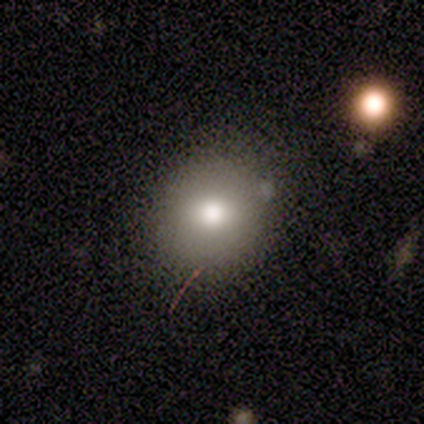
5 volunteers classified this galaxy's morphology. A smooth galaxy with no disk features (40%, tied with featured or disk) that is round (100%).

Vote fractions:
- Smooth or featured? smooth: 40% (tied) / featured or disk: 40% (tied) / star or artifact: 20%
- How rounded? round: 100% / in between: 0% / cigar-shaped: 0%
- Merging? none: 75% / merger: 25% / minor disturbance: 0% / major disturbance: 0%